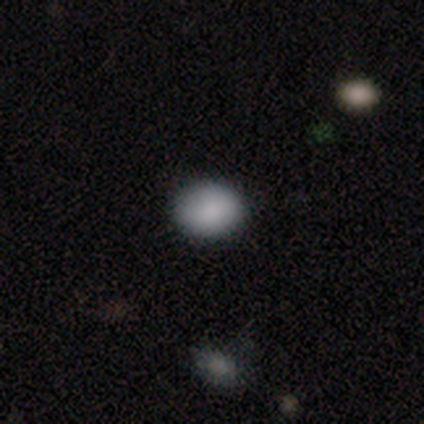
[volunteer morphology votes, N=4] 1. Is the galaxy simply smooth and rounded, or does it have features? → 75% smooth, 25% star or artifact, 0% featured or disk.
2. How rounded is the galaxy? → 100% round, 0% in between, 0% cigar-shaped.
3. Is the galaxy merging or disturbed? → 100% none, 0% minor disturbance, 0% major disturbance, 0% merger.